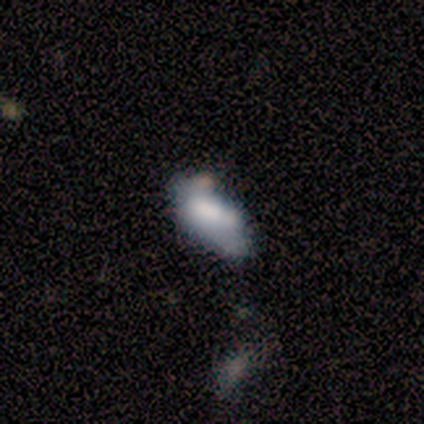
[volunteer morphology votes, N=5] Q: Smooth or featured?
A: featured or disk (60%); runner-up: smooth (40%)
Q: Edge-on disk?
A: no (100%)
Q: Bar?
A: no (100%)
Q: Spiral arms?
A: no (67%); runner-up: yes (33%)
Q: Bulge size?
A: dominant (33%); tied with: large (33%); moderate (33%)
Q: Merging?
A: none (60%); runner-up: minor disturbance (40%)